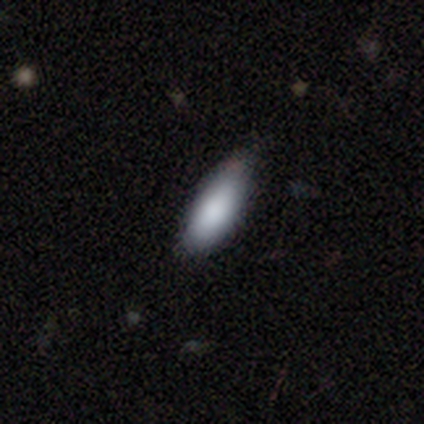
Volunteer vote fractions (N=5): Smooth or featured? 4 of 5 (80%) said smooth. How rounded? 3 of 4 (75%) said in between. Merging? 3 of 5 (60%) said none.